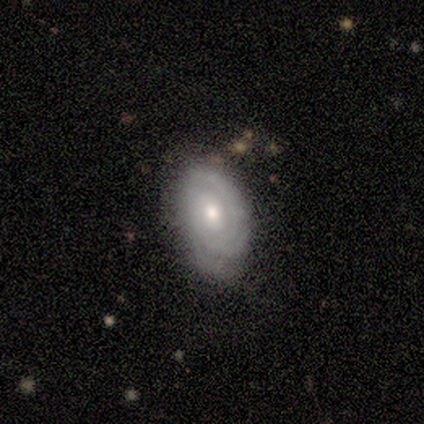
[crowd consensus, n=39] A featured or disk galaxy (77%) with no bar (60%), tight (83%) spiral arms (80%) and a moderate central bulge (53%). Merging: none (74%).